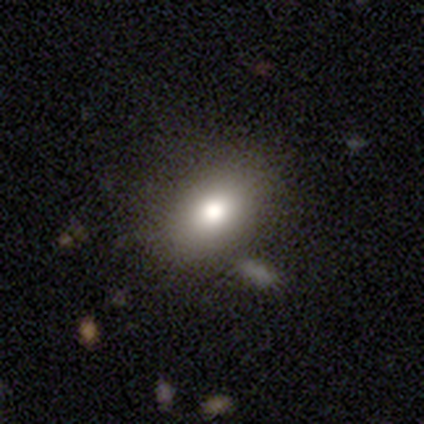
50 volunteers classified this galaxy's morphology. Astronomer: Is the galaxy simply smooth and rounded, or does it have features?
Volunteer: smooth — 82%.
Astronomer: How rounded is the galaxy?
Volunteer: in between — 90%.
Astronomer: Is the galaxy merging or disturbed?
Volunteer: none — 78%.